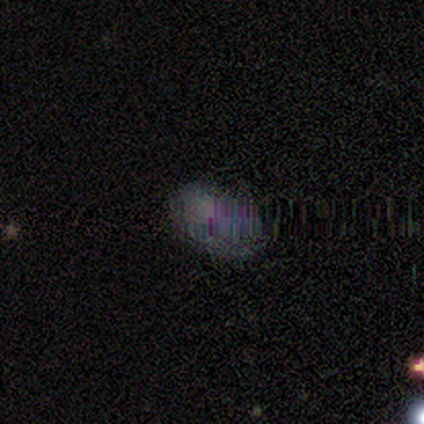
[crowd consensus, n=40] Volunteers were most divided on "smooth or featured": star or artifact: 50%, smooth: 40%, featured or disk: 10%.